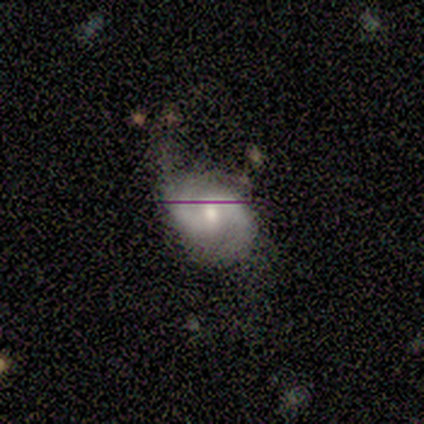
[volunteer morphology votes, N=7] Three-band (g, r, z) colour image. It shows a featured or disk galaxy (86%) with a weak bar (50%, tied with no), 2 (100%) medium (67%) spiral arms (100%) and a moderate central bulge (67%). Merging: minor disturbance (43%, tied with major disturbance).